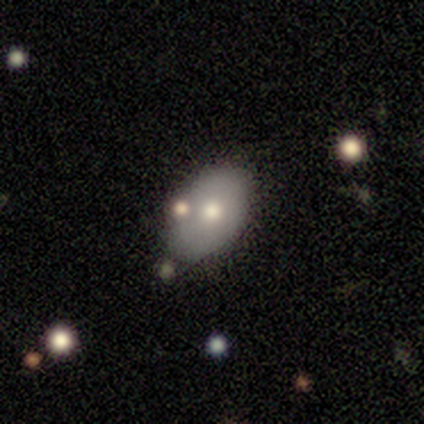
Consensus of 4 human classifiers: A smooth galaxy with no disk features (50%) that is in between round and cigar-shaped (100%).

Vote fractions:
- Smooth or featured? smooth: 50% / featured or disk: 25% / star or artifact: 25%
- How rounded? in between: 100% / round: 0% / cigar-shaped: 0%
- Merging? none: 33% (tied) / minor disturbance: 33% (tied) / merger: 33% (tied) / major disturbance: 0%